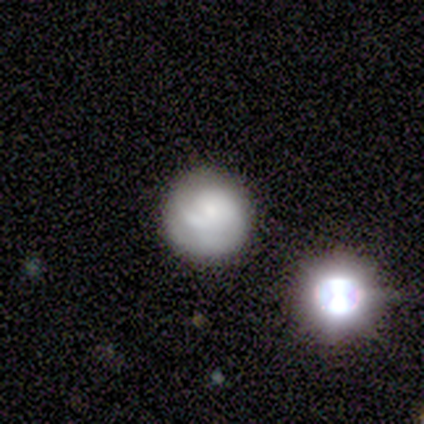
Smooth or featured: smooth — 46% (featured or disk — 44%)
How rounded: round — 94% (in between — 6%)
Merging: none — 63% (minor disturbance — 26%)